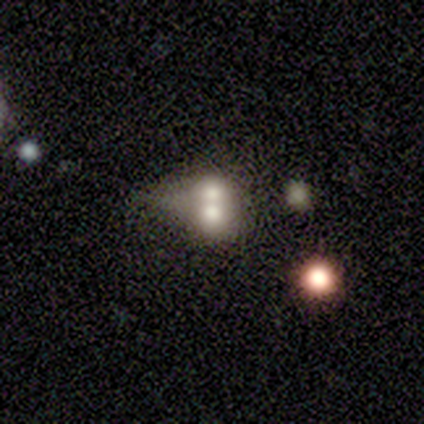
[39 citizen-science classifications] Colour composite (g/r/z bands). It shows a smooth galaxy with no disk features (54%) that is in between round and cigar-shaped (52%). Merging: merger (86%).